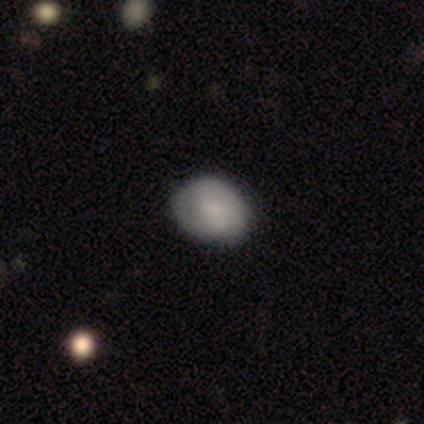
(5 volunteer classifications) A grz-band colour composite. It shows a smooth galaxy with no disk features (60%) that is round (67%). Merging: none (60%).